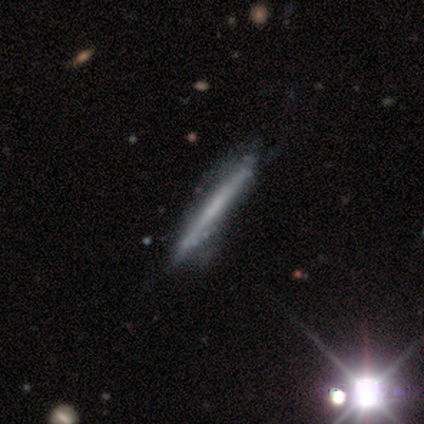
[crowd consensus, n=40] Morphology: type=featured or disk (57%); edge-on=yes (96%); edge-on bulge=none (82%); merging=none (28%).